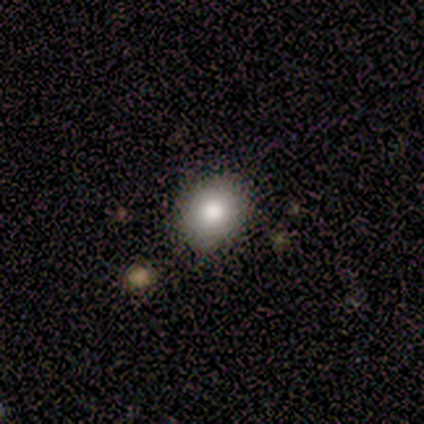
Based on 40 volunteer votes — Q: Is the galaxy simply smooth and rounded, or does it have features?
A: smooth — 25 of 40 (62%).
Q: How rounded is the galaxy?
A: round — 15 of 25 (60%).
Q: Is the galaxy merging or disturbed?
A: none — 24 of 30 (80%).